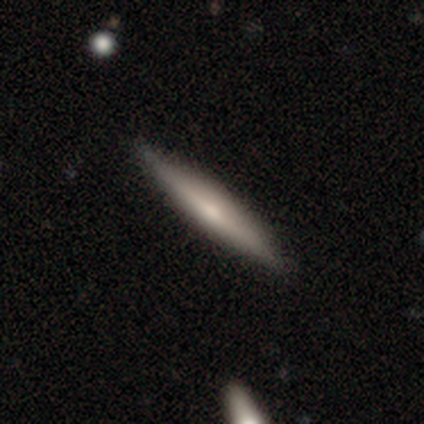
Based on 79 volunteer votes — Q: Smooth or featured?
A: smooth (51%); runner-up: featured or disk (49%)
Q: How rounded?
A: cigar-shaped (98%); runner-up: in between (2%)
Q: Merging?
A: none (49%); runner-up: minor disturbance (5%)